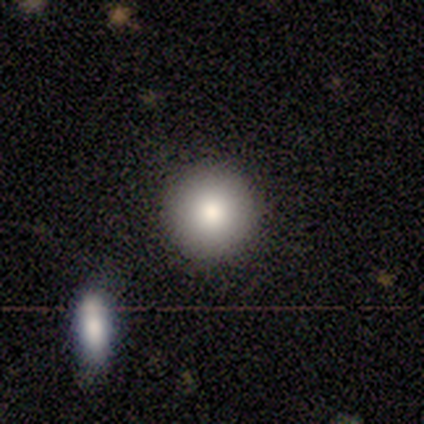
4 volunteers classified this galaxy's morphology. smooth 100%, featured or disk 0%, star or artifact 0%. Down the decision tree: how rounded — round (100%); merging — none (100%).